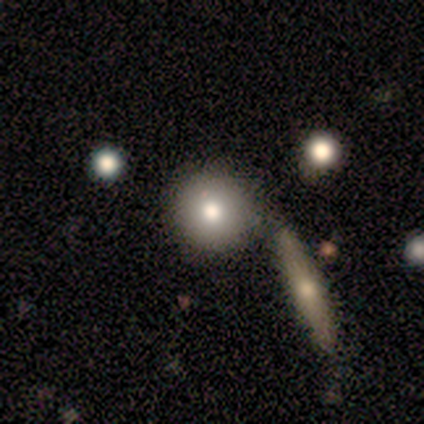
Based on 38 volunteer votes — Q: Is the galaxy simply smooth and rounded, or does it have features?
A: smooth — 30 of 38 (79%).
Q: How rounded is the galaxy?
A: round — 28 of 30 (93%).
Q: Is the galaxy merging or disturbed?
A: none — 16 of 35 (46%).